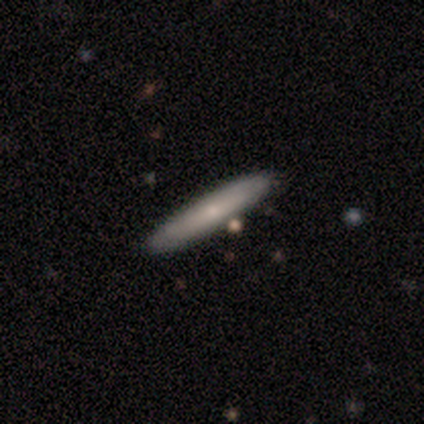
Volunteers were most divided on "merging": minor disturbance: 60%, none: 40%, major disturbance: 0%, merger: 0%. More confident: smooth or featured — smooth (100%); how rounded — cigar-shaped (100%).